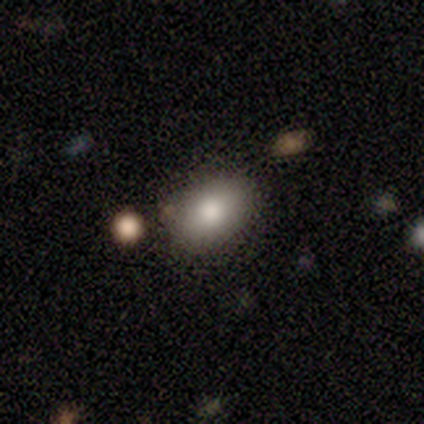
Overall: smooth (80%). How rounded: in between (100%). Merging: none (50%; minor disturbance 25%).